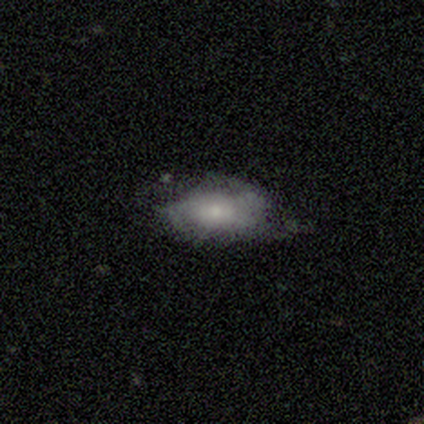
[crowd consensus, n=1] smooth_or_featured: featured or disk (p=1.00)
disk_edge_on: no (p=1.00)
bar: no (p=1.00)
has_spiral_arms: no (p=1.00)
bulge_size: small (p=1.00)
merging: minor disturbance (p=1.00)